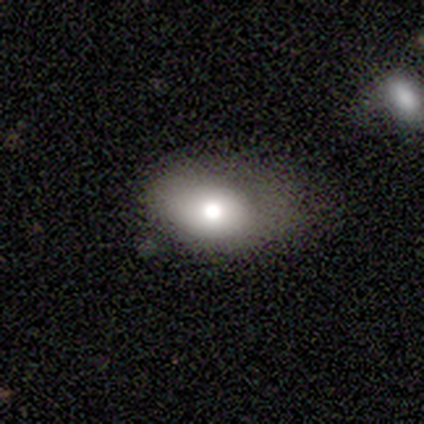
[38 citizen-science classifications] smooth 63%, featured or disk 34%, star or artifact 3%. Down the decision tree: how rounded — in between (96%); merging — minor disturbance (41%).